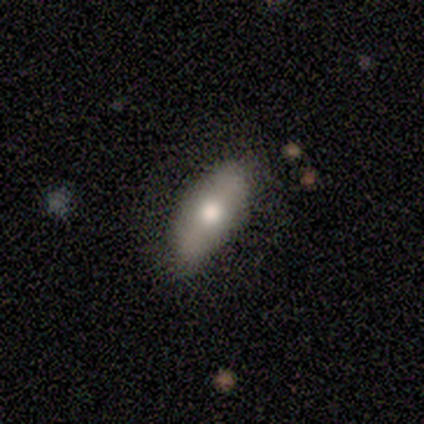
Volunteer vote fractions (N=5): smooth_or_featured: smooth (p=0.60) [alt: featured or disk p=0.40]
how_rounded: cigar-shaped (p=0.67) [alt: in between p=0.33]
merging: none (p=0.80) [alt: minor disturbance p=0.20]